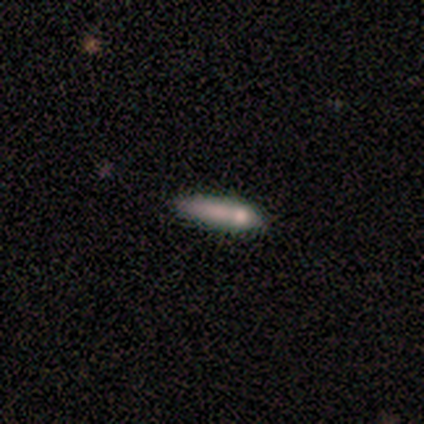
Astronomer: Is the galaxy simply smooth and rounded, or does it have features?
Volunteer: smooth — 80%.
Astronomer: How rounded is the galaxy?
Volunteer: cigar-shaped — 100%.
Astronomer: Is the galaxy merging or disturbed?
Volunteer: minor disturbance — 60%.